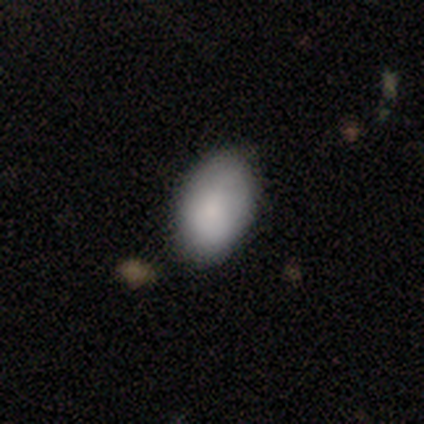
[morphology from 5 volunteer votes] This appears to be a smooth galaxy with no disk features (100%) that is in between round and cigar-shaped (100%). Merging: none (100%).